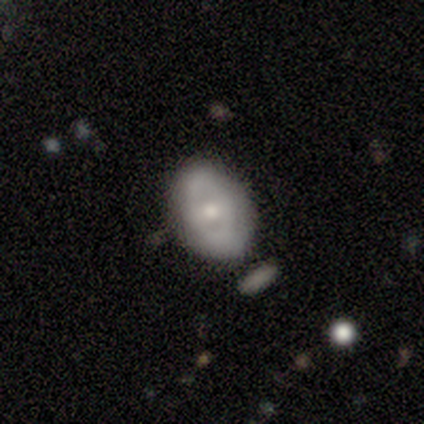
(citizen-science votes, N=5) smooth-or-featured: featured or disk: 80% | smooth: 20% | star or artifact: 0%
  disk-edge-on: no: 100% | yes: 0%
    bar: no: 75% | weak: 25% | strong: 0%
    has-spiral-arms: no: 100% | yes: 0%
    bulge-size: moderate: 75% | small: 25% | dominant: 0% | large: 0% | none: 0%
  merging: none: 100% | minor disturbance: 0% | major disturbance: 0% | merger: 0%